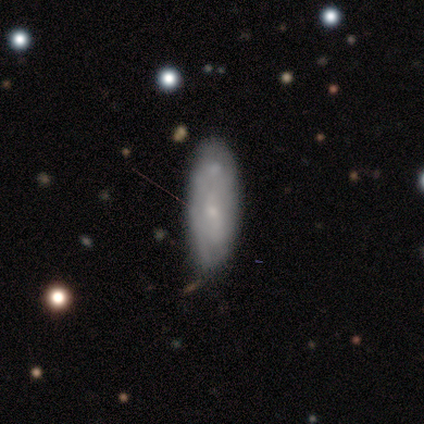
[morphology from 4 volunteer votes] A smooth galaxy with no disk features (75%) that is in between round and cigar-shaped (67%).

Vote fractions:
- Smooth or featured? smooth: 75% / featured or disk: 25% / star or artifact: 0%
- How rounded? in between: 67% / cigar-shaped: 33% / round: 0%
- Merging? none: 50% / minor disturbance: 25% / merger: 25% / major disturbance: 0%